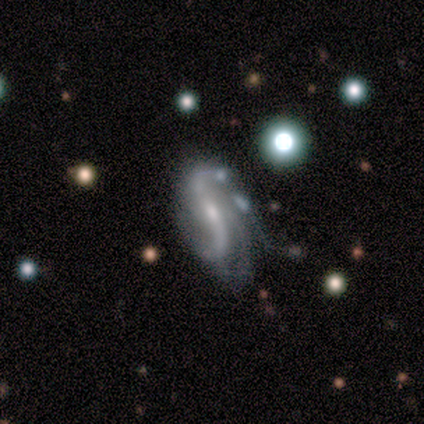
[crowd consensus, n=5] A featured or disk galaxy (100%) with a weak bar (75%), 2 (100%) loose (100%) spiral arms (100%) and a moderate central bulge (75%).

Vote fractions:
- Smooth or featured? featured or disk: 100% / smooth: 0% / star or artifact: 0%
- Edge-on disk? no: 80% / yes: 20%
- Bar? weak: 75% / no: 25% / strong: 0%
- Spiral arms? yes: 100% / no: 0%
- Spiral winding? loose: 100% / tight: 0% / medium: 0%
- Spiral arm count? 2: 100% / 1: 0% / 3: 0% / 4: 0% / more than 4: 0% / can't tell: 0%
- Bulge size? moderate: 75% / none: 25% / dominant: 0% / large: 0% / small: 0%
- Merging? none: 60% / minor disturbance: 40% / major disturbance: 0% / merger: 0%